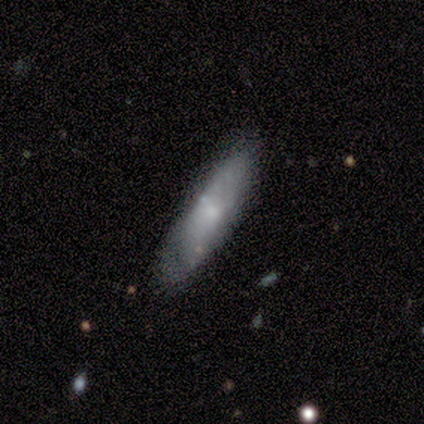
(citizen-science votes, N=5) Volunteers were most divided on "spiral arms" (2-way tie): yes: 50%, no: 50%; "bulge size" (2-way tie): moderate: 50%, small: 50%, dominant: 0%, large: 0%, none: 0%. More confident: bar — no (100%); spiral winding — tight (100%); spiral arm count — can't tell (100%); merging — none (80%); edge-on disk — no (67%); smooth or featured — featured or disk (60%).